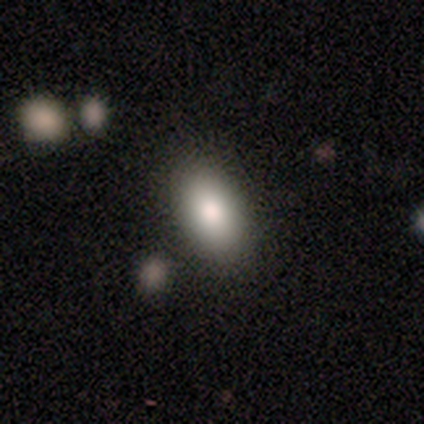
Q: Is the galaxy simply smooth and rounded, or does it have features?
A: smooth — 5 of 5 (100%).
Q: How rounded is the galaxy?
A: in between — 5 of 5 (100%).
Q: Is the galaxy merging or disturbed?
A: none — 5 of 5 (100%).